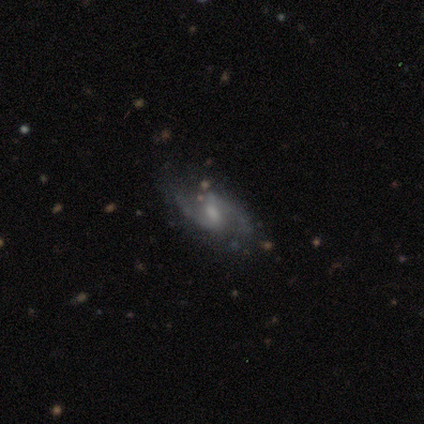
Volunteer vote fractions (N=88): Smooth or featured? featured or disk (93%)
Edge-on disk? no (98%)
Bar? weak (65%)
Spiral arms? yes (96%)
Spiral winding? medium (47%)
Spiral arm count? 2 (95%)
Bulge size? moderate (49%)
Merging? none (75%)